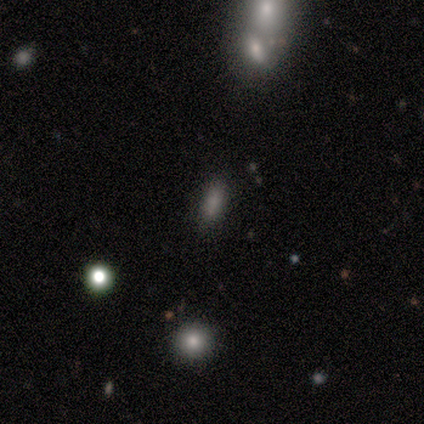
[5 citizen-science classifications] Smooth or featured? 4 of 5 (80%) said smooth. How rounded? 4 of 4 (100%) said in between. Merging? 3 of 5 (60%) said none.